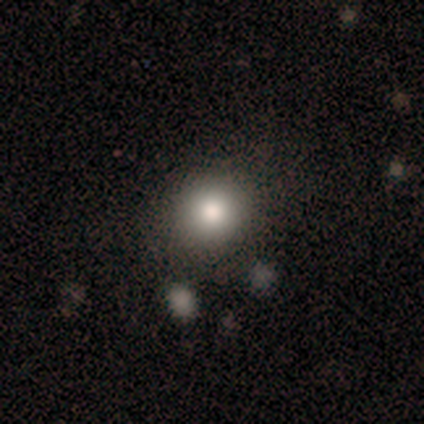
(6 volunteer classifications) Smooth or featured?
  - smooth: 100% *
  - featured or disk: 0%
  - star or artifact: 0%
How rounded?
  - round: 67% *
  - in between: 33%
  - cigar-shaped: 0%
Merging?
  - none: 67% *
  - minor disturbance: 17%
  - major disturbance: 17%
  - merger: 0%